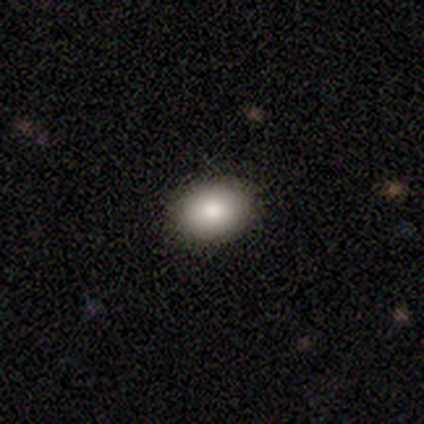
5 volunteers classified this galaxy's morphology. This appears to be a smooth galaxy with no disk features (100%) that is in between round and cigar-shaped (80%). Merging: none (80%).